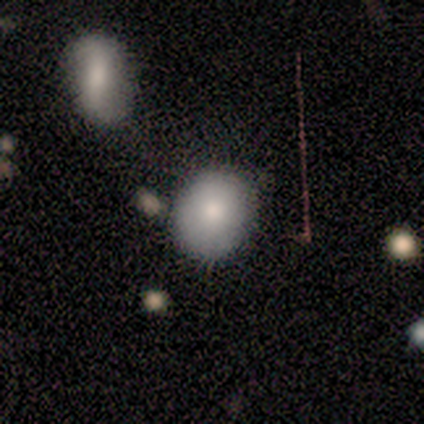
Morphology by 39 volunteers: This is likely a smooth galaxy (79%). How rounded: possibly round (58%). Merging: possibly none (49%).